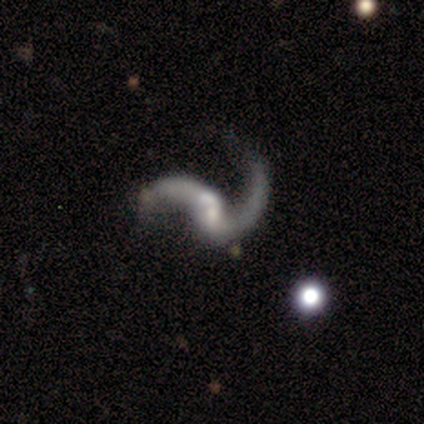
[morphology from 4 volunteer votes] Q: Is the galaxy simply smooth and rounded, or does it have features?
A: featured or disk — 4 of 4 (100%).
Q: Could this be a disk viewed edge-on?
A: no — 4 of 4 (100%).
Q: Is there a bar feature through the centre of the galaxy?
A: no — 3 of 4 (75%).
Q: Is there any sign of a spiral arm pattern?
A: yes — 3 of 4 (75%).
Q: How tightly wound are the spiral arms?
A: loose — 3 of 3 (100%).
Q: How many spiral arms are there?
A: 2 — 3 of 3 (100%).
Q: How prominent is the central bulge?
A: moderate — 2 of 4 (50%, tied with small).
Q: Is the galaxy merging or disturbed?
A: none — 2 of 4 (50%).